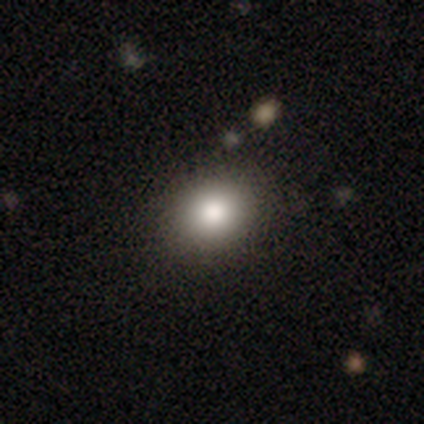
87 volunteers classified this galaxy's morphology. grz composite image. It shows a smooth galaxy with no disk features (79%) that is round (55%). Merging: none (87%).